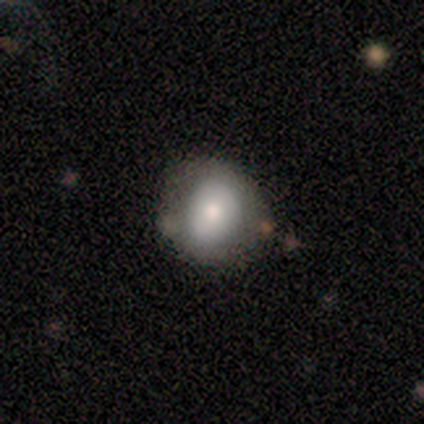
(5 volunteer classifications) Smooth or featured? smooth (80%)
How rounded? round (100%)
Merging? none (60%)